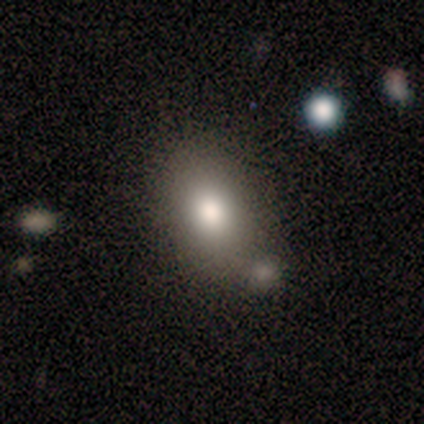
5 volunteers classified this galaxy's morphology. This appears to be a smooth galaxy with no disk features (80%) that is in between round and cigar-shaped (100%). Merging: none (60%).